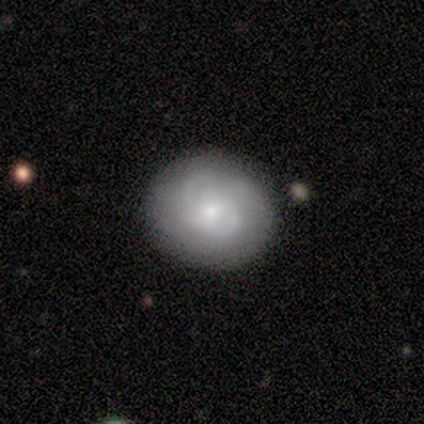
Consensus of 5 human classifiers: Smooth or featured: featured or disk — 60% (smooth — 40%)
Edge-on disk: no — 100%
Bar: no — 100%
Spiral arms: yes — 100%
Spiral winding: tight — 67% (medium — 33%)
Spiral arm count: 2 — 100%
Bulge size: small — 100%
Merging: none — 100%